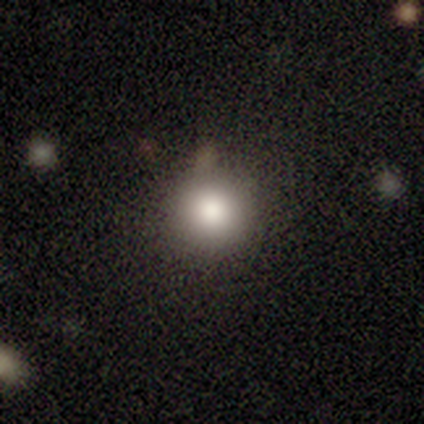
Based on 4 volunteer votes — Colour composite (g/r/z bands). It shows a smooth galaxy with no disk features (100%) that is round (100%). Merging: none (100%).